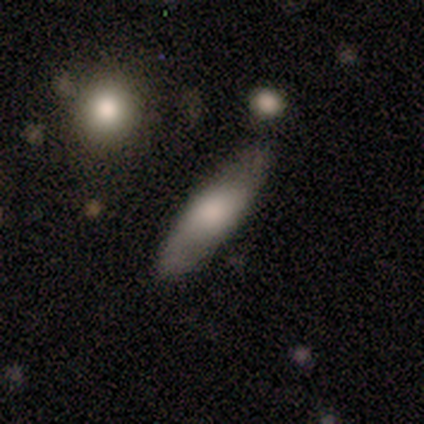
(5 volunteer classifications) A smooth galaxy with no disk features (100%) that is cigar-shaped (80%).

Vote fractions:
- Smooth or featured? smooth: 100% / featured or disk: 0% / star or artifact: 0%
- How rounded? cigar-shaped: 80% / in between: 20% / round: 0%
- Merging? none: 80% / merger: 20% / minor disturbance: 0% / major disturbance: 0%